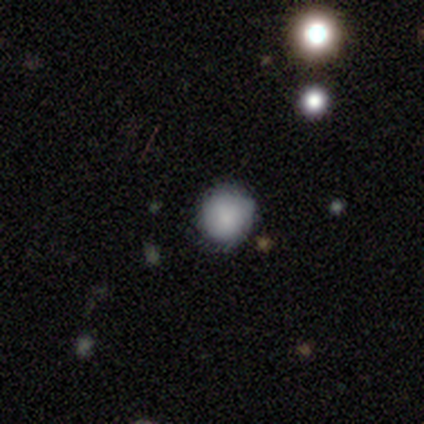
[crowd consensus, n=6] smooth 100%, featured or disk 0%, star or artifact 0%. Down the decision tree: how rounded — round (83%); merging — none (67%).